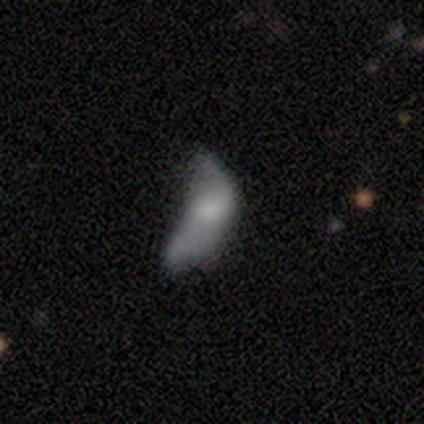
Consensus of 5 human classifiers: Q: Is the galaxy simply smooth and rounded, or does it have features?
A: smooth — 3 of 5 (60%).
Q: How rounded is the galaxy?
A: in between — 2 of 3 (67%).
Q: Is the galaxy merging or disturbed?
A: major disturbance — 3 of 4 (75%).